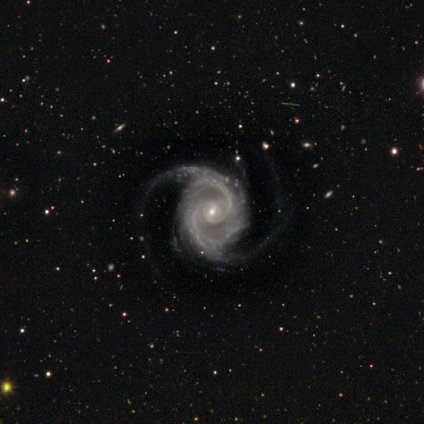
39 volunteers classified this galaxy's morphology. A featured or disk galaxy (92%) with a weak bar (51%), 2 (77%) medium (46%) spiral arms (100%) and a small central bulge (89%).

Vote fractions:
- Smooth or featured? featured or disk: 92% / star or artifact: 5% / smooth: 3%
- Edge-on disk? no: 97% / yes: 3%
- Bar? weak: 51% / no: 31% / strong: 17%
- Spiral arms? yes: 100% / no: 0%
- Spiral winding? medium: 46% / tight: 34% / loose: 20%
- Spiral arm count? 2: 77% / 3: 17% / more than 4: 3% / can't tell: 3% / 1: 0% / 4: 0%
- Bulge size? small: 89% / moderate: 11% / dominant: 0% / large: 0% / none: 0%
- Merging? none: 68% / minor disturbance: 19% / major disturbance: 14% / merger: 0%